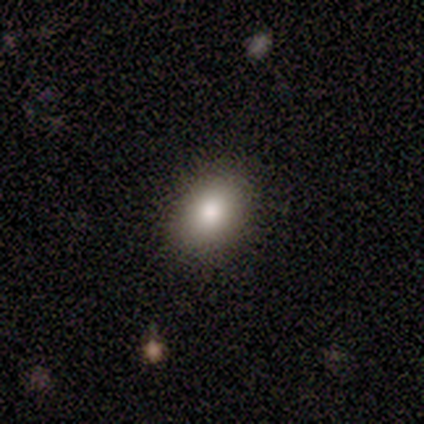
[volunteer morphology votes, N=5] Volunteers were most divided on "how rounded": in between: 75%, round: 25%, cigar-shaped: 0%. More confident: merging — none (100%); smooth or featured — smooth (80%).